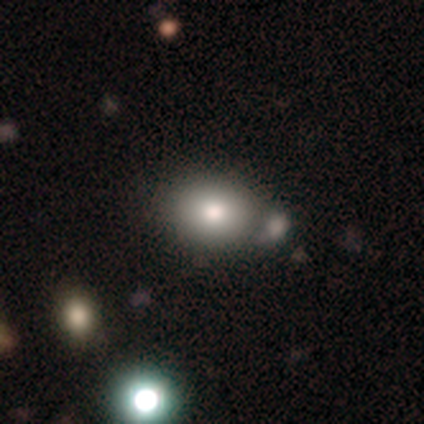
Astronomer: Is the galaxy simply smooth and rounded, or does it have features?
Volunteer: smooth — 75%.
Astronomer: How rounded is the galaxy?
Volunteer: in between — 65%.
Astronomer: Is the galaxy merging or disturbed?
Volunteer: none — 49% (runner-up: merger, 26%).